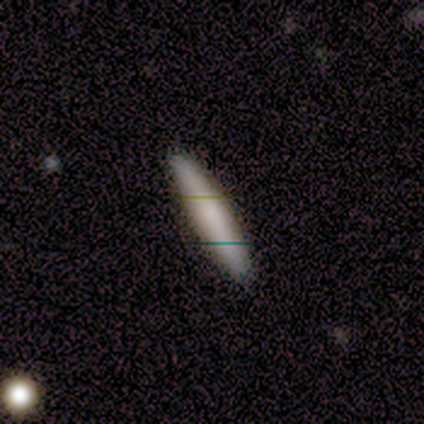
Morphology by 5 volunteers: This is clearly a smooth galaxy (80%). How rounded: clearly cigar-shaped (100%). Merging: clearly none (80%).